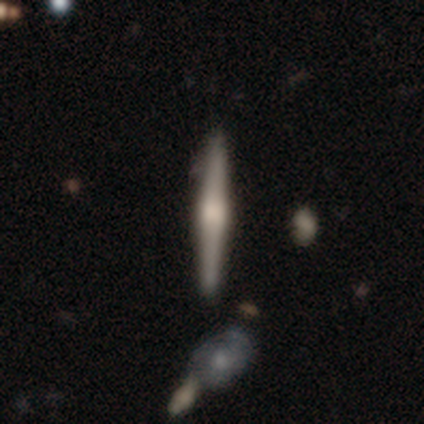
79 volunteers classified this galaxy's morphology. featured or disk 72%, smooth 28%, star or artifact 0%. Down the decision tree: edge-on disk — yes (98%); edge-on bulge — rounded (73%); merging — none (47%).